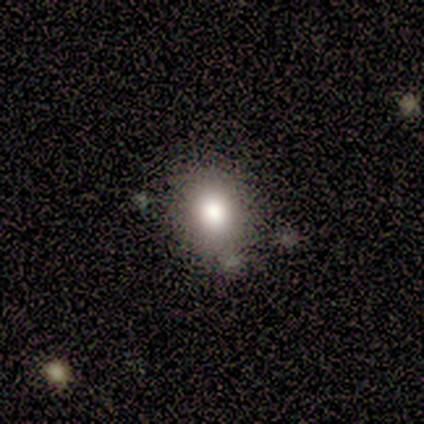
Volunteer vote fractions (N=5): Smooth or featured: smooth — 80% (star or artifact — 20%)
How rounded: round — 75% (in between — 25%)
Merging: none — 50% (minor disturbance — 25%)